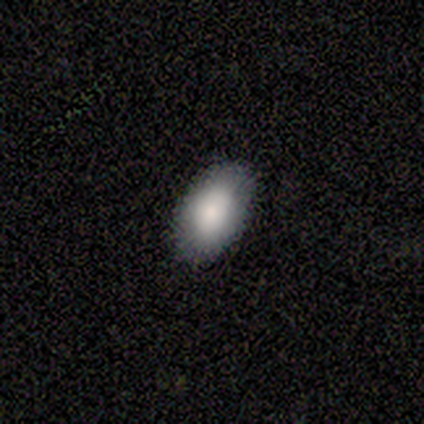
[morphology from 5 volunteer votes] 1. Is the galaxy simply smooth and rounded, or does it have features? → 80% smooth, 20% featured or disk, 0% star or artifact.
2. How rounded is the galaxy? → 100% in between, 0% round, 0% cigar-shaped.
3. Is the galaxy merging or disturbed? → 100% none, 0% minor disturbance, 0% major disturbance, 0% merger.